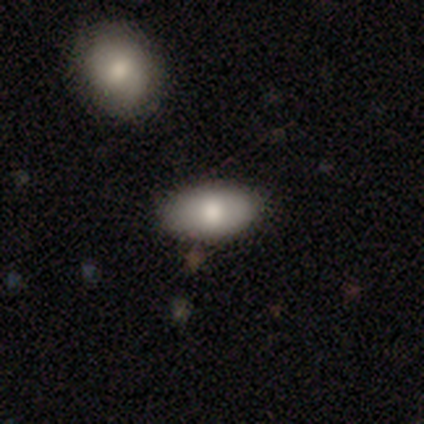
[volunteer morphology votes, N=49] A smooth galaxy with no disk features (84%) that is in between round and cigar-shaped (95%).

Vote fractions:
- Smooth or featured? smooth: 84% / featured or disk: 12% / star or artifact: 4%
- How rounded? in between: 95% / round: 5% / cigar-shaped: 0%
- Merging? none: 83% / minor disturbance: 11% / major disturbance: 6% / merger: 0%